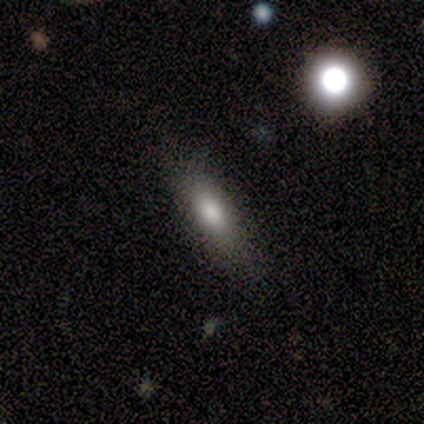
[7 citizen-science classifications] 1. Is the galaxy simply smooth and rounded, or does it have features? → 86% smooth, 14% featured or disk, 0% star or artifact.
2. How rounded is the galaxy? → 67% cigar-shaped, 33% in between, 0% round.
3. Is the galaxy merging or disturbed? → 100% none, 0% minor disturbance, 0% major disturbance, 0% merger.